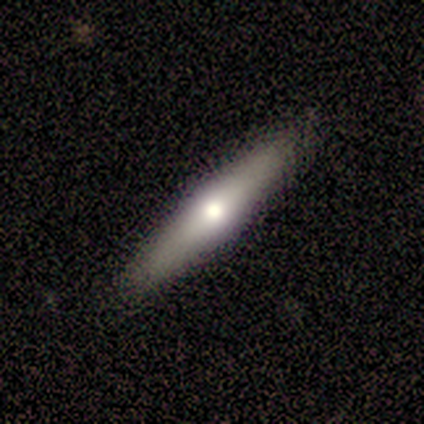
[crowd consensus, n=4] Smooth or featured? featured or disk (75%)
Edge-on disk? yes (100%)
Edge-on bulge? rounded (100%)
Merging? none (75%)